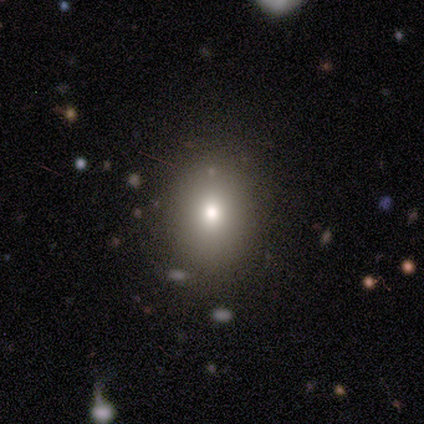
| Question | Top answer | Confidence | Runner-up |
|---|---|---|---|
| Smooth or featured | smooth | 100% | — |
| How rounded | round | 60% | in between (40%) |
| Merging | none | 100% | — |